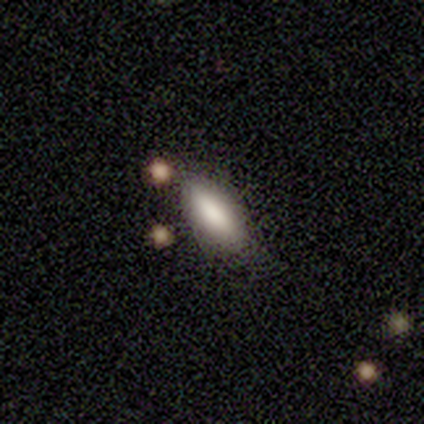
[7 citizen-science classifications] This is clearly a smooth galaxy (100%). How rounded: likely cigar-shaped (71%). Merging: likely none (71%).